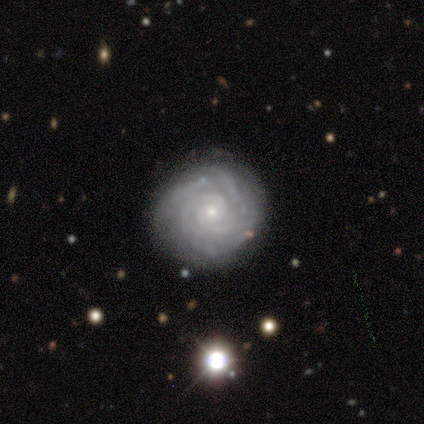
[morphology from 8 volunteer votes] This is clearly a featured or disk galaxy (100%). It is clearly not viewed edge-on (100%). Bar: clearly no (88%). Spiral arm pattern: clearly yes (100%). Spiral arm count: marginally 2 (38%). Spiral winding: clearly tight (100%). Central bulge: clearly small (88%). Merging: clearly none (100%).